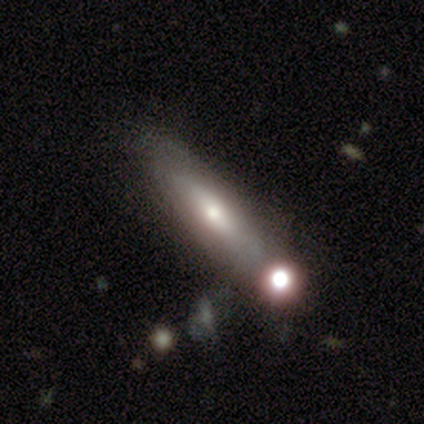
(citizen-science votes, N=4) smooth 50% (tied), featured or disk 50% (tied), star or artifact 0%. Down the decision tree: how rounded — in between (50%, tied with cigar-shaped); merging — none (50%).